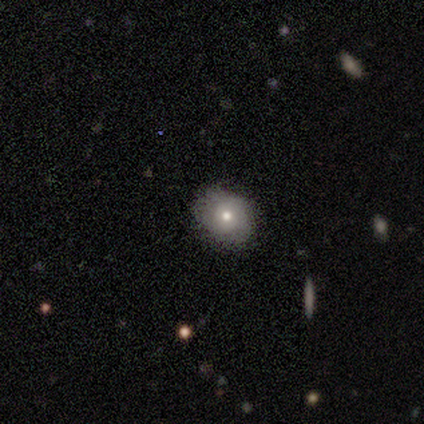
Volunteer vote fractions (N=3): This appears to be a smooth galaxy with no disk features (33%, tied with featured or disk and star or artifact) that is in between round and cigar-shaped (100%). Merging: none (50%, tied with minor disturbance).